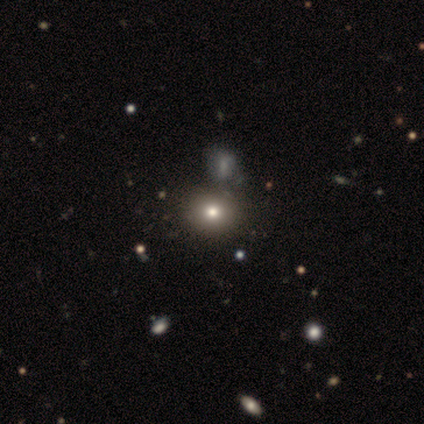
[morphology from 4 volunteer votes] Smooth or featured? smooth (50%)
How rounded? round (100%)
Merging? none (67%)